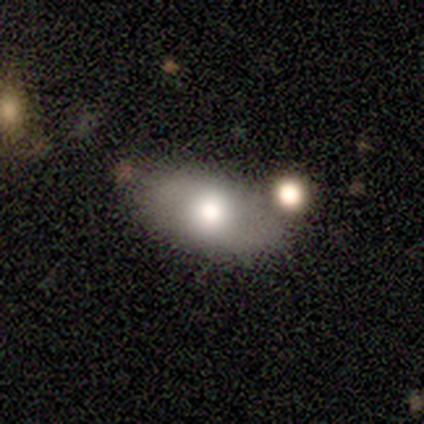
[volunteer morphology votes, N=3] smooth 67%, star or artifact 33%, featured or disk 0%. Down the decision tree: how rounded — in between (100%); merging — none (100%).